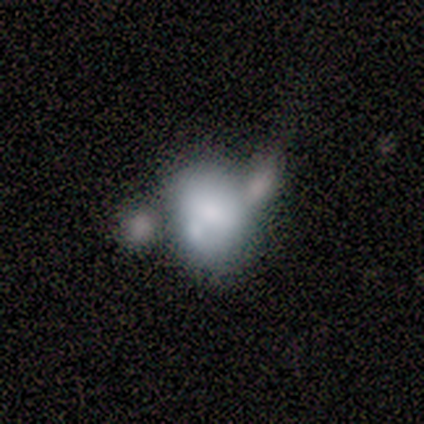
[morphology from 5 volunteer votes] Smooth or featured: smooth — 60% (featured or disk — 40%)
How rounded: round — 67% (in between — 33%)
Merging: merger — 80% (minor disturbance — 20%)